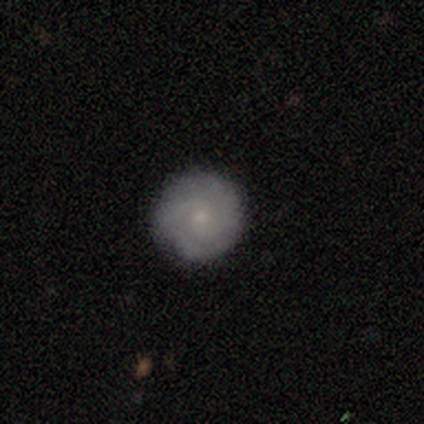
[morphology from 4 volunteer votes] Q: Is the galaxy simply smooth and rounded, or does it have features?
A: smooth — 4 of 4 (100%).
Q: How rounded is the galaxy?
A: round — 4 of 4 (100%).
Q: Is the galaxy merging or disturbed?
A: none — 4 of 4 (100%).